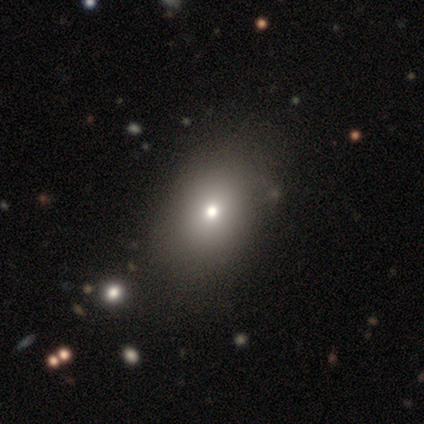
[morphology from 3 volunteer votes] Smooth or featured?
  - smooth: 67% *
  - star or artifact: 33%
  - featured or disk: 0%
How rounded?
  - round: 50% * (tied)
  - in between: 50% * (tied)
  - cigar-shaped: 0%
Merging?
  - major disturbance: 100% *
  - none: 0%
  - minor disturbance: 0%
  - merger: 0%